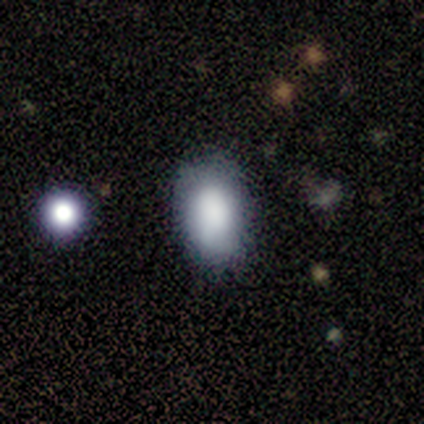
Smooth or featured?
  - smooth: 82% *
  - featured or disk: 18%
  - star or artifact: 0%
How rounded?
  - in between: 100% *
  - round: 0%
  - cigar-shaped: 0%
Merging?
  - none: 91% *
  - minor disturbance: 9%
  - major disturbance: 0%
  - merger: 0%